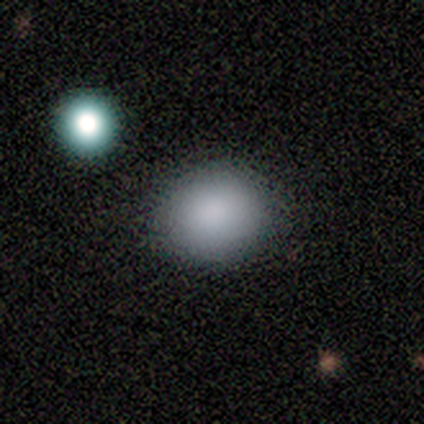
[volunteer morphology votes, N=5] smooth 60%, featured or disk 20%, star or artifact 20%. Down the decision tree: how rounded — round (100%); merging — none (75%).